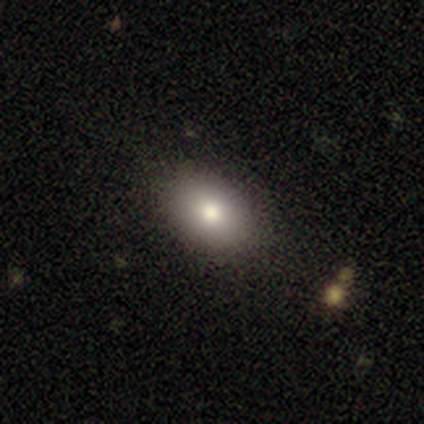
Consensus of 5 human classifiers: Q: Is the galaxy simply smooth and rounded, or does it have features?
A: smooth — 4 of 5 (80%).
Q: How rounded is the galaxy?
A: in between — 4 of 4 (100%).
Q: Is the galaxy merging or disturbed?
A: none — 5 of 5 (100%).